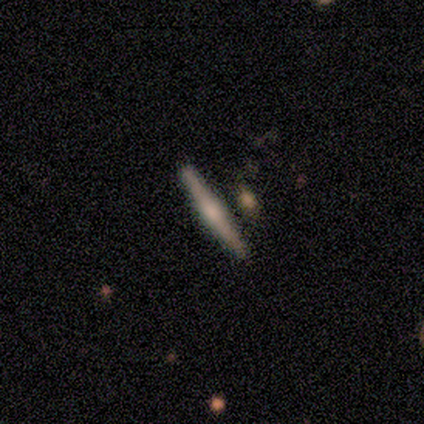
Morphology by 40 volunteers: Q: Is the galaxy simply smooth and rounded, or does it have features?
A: featured or disk — 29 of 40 (72%).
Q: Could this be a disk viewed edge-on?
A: yes — 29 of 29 (100%).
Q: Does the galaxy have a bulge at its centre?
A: rounded — 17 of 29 (59%).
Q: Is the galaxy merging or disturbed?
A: none — 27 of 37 (73%).